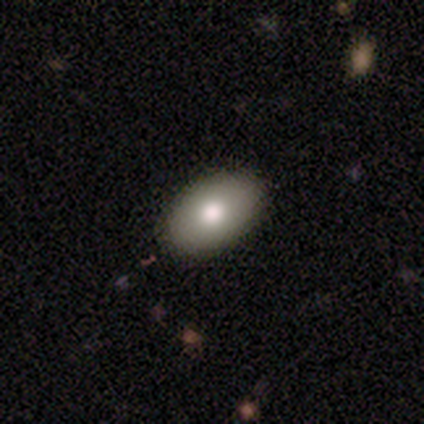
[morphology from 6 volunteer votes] type=smooth (67%); roundness=in between (100%); merging=none (100%).